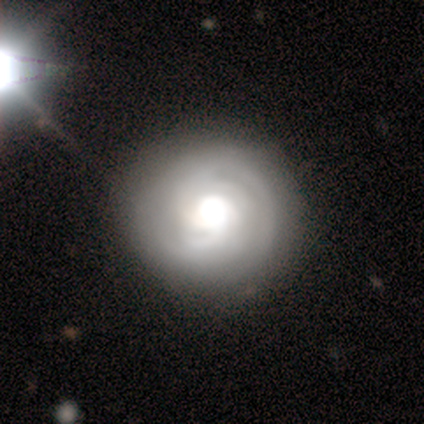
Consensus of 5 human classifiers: Morphology: type=featured or disk (80%); edge-on=no (75%); bar=no (100%); spiral arms=yes (67%); winding=tight (100%); arm count=2 (50%, tied with 3); bulge=moderate (67%); merging=none (80%).